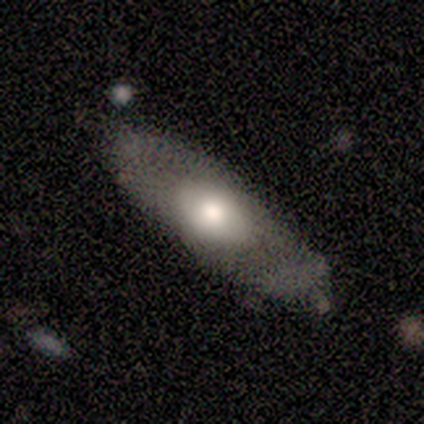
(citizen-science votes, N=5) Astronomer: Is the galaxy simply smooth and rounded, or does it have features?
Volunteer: featured or disk — 60% (runner-up: smooth, 40%).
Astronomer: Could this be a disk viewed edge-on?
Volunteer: no — 67%.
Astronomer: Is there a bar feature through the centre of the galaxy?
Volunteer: no — 100%.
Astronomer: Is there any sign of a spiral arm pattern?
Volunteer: yes — 50%, tied with no at 50%.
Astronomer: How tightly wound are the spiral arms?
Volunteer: loose — 100%.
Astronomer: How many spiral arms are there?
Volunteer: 2 — 100%.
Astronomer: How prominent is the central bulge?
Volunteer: large — 50%, tied with moderate at 50%.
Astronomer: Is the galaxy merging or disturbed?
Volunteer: none — 80%.